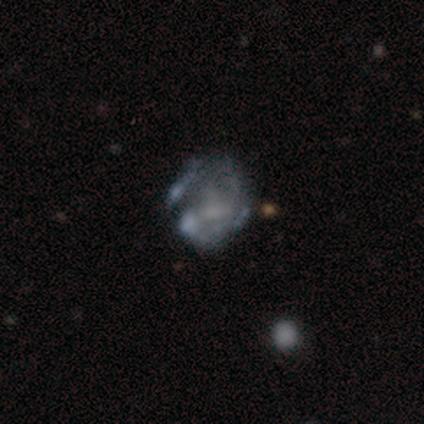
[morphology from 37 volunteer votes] Smooth or featured? featured or disk (76%)
Edge-on disk? no (100%)
Bar? no (75%)
Spiral arms? no (71%)
Bulge size? none (61%)
Merging? none (41%)